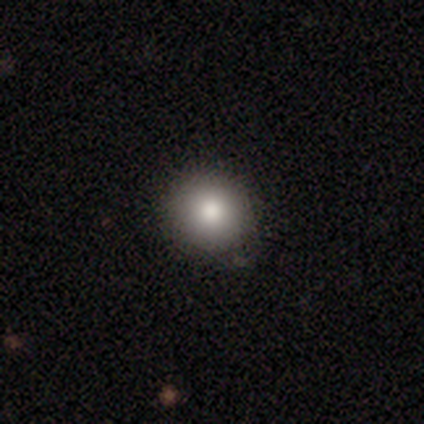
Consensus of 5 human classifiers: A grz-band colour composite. It shows a smooth galaxy with no disk features (80%) that is round (100%). Merging: none (40%).